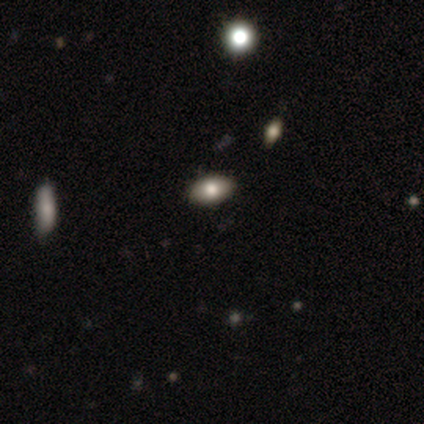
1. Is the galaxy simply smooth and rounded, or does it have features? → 80% smooth, 20% star or artifact, 0% featured or disk.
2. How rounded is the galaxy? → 75% in between, 25% round, 0% cigar-shaped.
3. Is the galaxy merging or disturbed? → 100% none, 0% minor disturbance, 0% major disturbance, 0% merger.